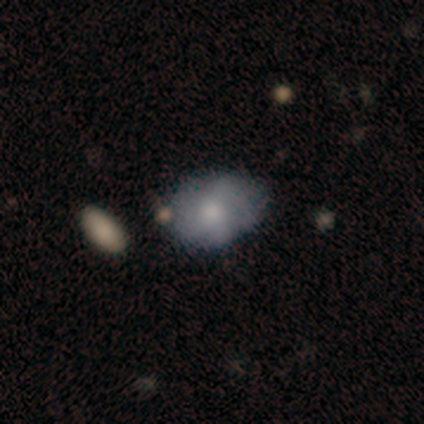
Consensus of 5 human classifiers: Volunteers were most divided on "spiral arms" (2-way tie): yes: 50%, no: 50%; "bulge size" (2-way tie): large: 50%, small: 50%, dominant: 0%, moderate: 0%, none: 0%. More confident: bar — no (100%); spiral winding — medium (100%); spiral arm count — can't tell (100%); edge-on disk — no (67%); smooth or featured — featured or disk (60%); merging — none (60%).